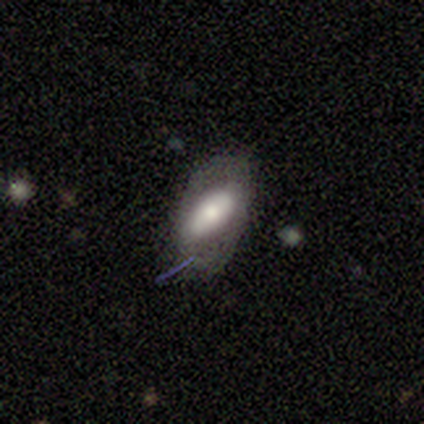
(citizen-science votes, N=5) Smooth or featured? smooth (80%)
How rounded? in between (100%)
Merging? none (40%, tied with major disturbance)